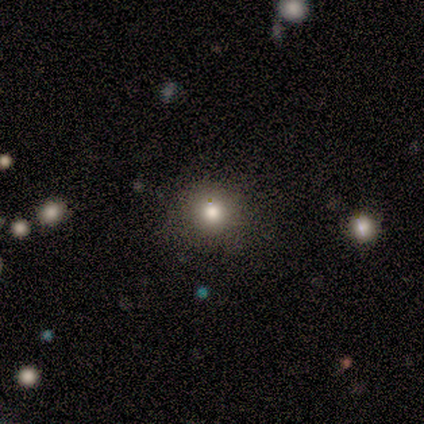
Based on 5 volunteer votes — A smooth galaxy with no disk features (40%, tied with star or artifact) that is round (100%). Merging: none (100%).